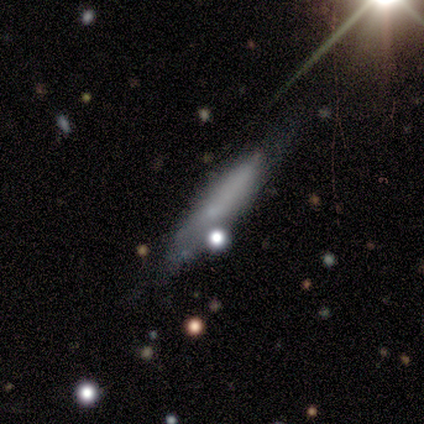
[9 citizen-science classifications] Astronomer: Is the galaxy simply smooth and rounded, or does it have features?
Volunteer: smooth — 78%.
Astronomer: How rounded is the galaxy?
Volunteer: cigar-shaped — 86%.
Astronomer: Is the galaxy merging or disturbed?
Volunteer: minor disturbance — 57%.